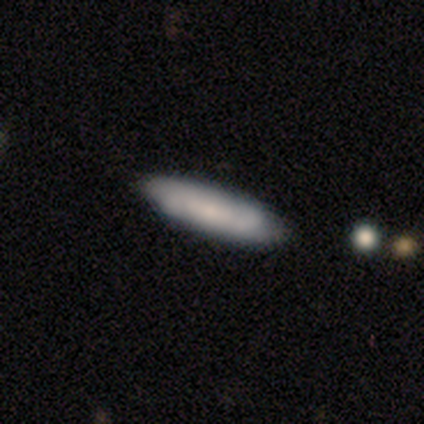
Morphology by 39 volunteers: A smooth galaxy with no disk features (62%) that is cigar-shaped (79%).

Vote fractions:
- Smooth or featured? smooth: 62% / featured or disk: 31% / star or artifact: 8%
- How rounded? cigar-shaped: 79% / in between: 21% / round: 0%
- Merging? none: 75% / minor disturbance: 22% / merger: 3% / major disturbance: 0%